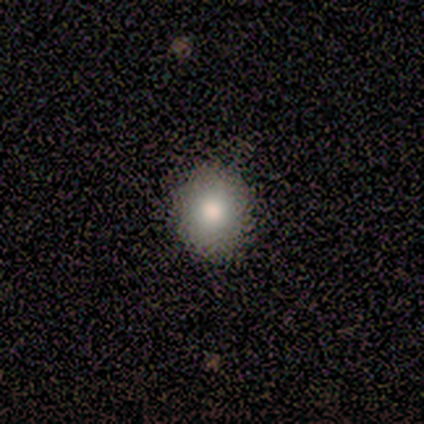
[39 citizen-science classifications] Smooth or featured? 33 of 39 (85%) said smooth. How rounded? 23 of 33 (70%) said round. Merging? 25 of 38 (66%) said none.